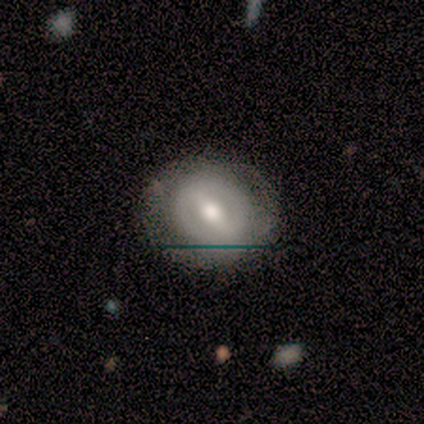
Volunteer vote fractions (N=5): Volunteers were most divided on "smooth or featured": featured or disk: 60%, smooth: 40%, star or artifact: 0%. More confident: edge-on disk — no (100%); bar — weak (100%); spiral arms — no (100%); merging — none (100%); bulge size — moderate (67%).